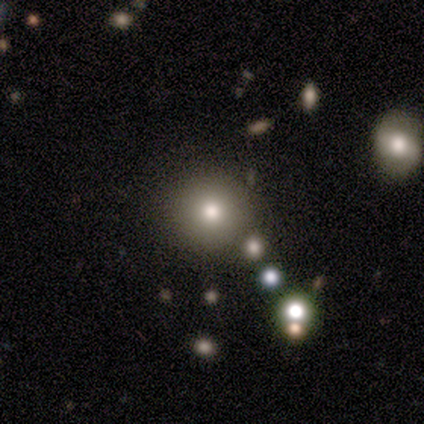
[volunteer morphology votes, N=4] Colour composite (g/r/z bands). It shows a smooth galaxy with no disk features (75%) that is round (100%). Merging: none (100%).